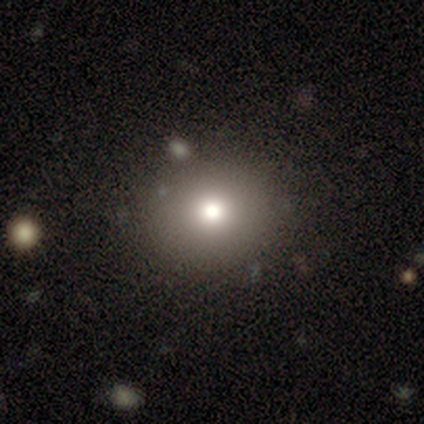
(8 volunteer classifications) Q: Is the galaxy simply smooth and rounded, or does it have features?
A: smooth — 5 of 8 (62%).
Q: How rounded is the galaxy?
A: round — 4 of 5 (80%).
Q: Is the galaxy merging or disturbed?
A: none — 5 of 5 (100%).